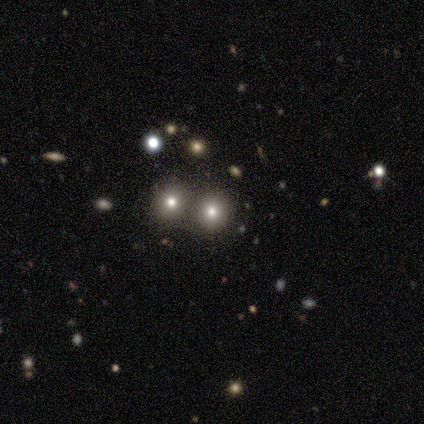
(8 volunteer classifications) This is possibly a smooth galaxy (50%, tied with star or artifact). How rounded: clearly round (100%). Merging: possibly none (50%, tied with merger).